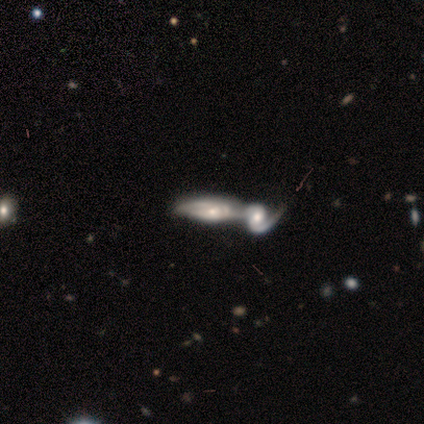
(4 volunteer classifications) This is likely a featured or disk galaxy (75%). It is likely not viewed edge-on (67%). Bar: clearly no (100%). Spiral arm pattern: clearly yes (100%). Spiral arm count: possibly 1 (50%, tied with 2). Spiral winding: possibly tight (50%, tied with medium). Central bulge: possibly moderate (50%, tied with small). Merging: likely merger (75%).